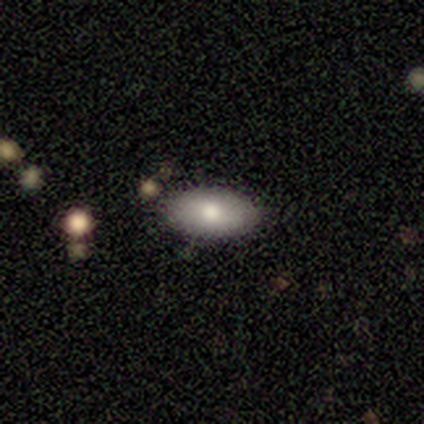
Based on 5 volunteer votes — A smooth galaxy with no disk features (100%) that is in between round and cigar-shaped (80%).

Vote fractions:
- Smooth or featured? smooth: 100% / featured or disk: 0% / star or artifact: 0%
- How rounded? in between: 80% / round: 20% / cigar-shaped: 0%
- Merging? none: 100% / minor disturbance: 0% / major disturbance: 0% / merger: 0%